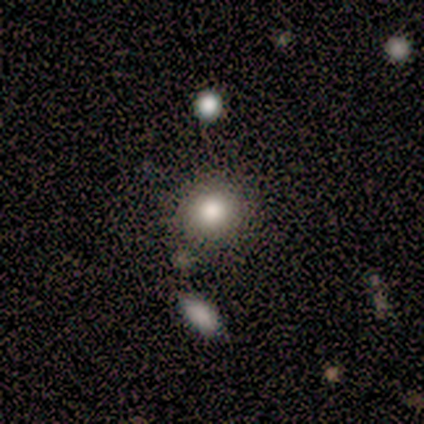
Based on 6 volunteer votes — Overall: smooth (100%). How rounded: round (83%). Merging: none (50%, tied with minor disturbance).